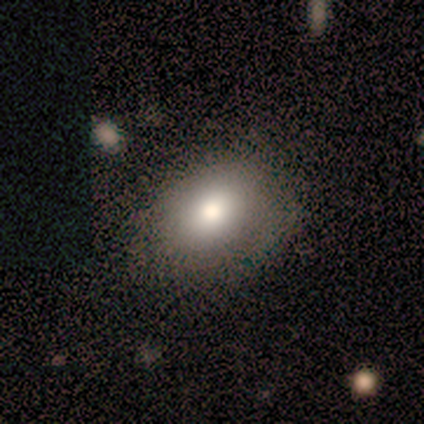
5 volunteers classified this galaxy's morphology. A smooth galaxy with no disk features (60%) that is round (67%).

Vote fractions:
- Smooth or featured? smooth: 60% / featured or disk: 40% / star or artifact: 0%
- How rounded? round: 67% / in between: 33% / cigar-shaped: 0%
- Merging? none: 60% / major disturbance: 40% / minor disturbance: 0% / merger: 0%